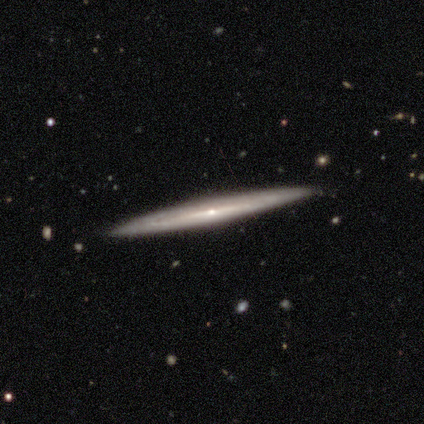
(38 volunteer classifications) Smooth or featured?
  - featured or disk: 84% *
  - smooth: 11%
  - star or artifact: 5%
Edge-on disk?
  - yes: 94% *
  - no: 6%
Edge-on bulge?
  - rounded: 73% *
  - none: 23%
  - boxy: 3%
Merging?
  - none: 94% *
  - minor disturbance: 3%
  - merger: 3%
  - major disturbance: 0%